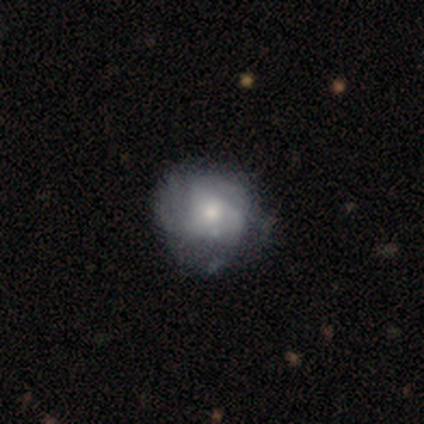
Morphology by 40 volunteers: Smooth or featured? featured or disk (57%)
Edge-on disk? no (96%)
Bar? no (82%)
Spiral arms? yes (82%)
Spiral winding? tight (50%)
Spiral arm count? can't tell (67%)
Bulge size? moderate (59%)
Merging? none (45%)